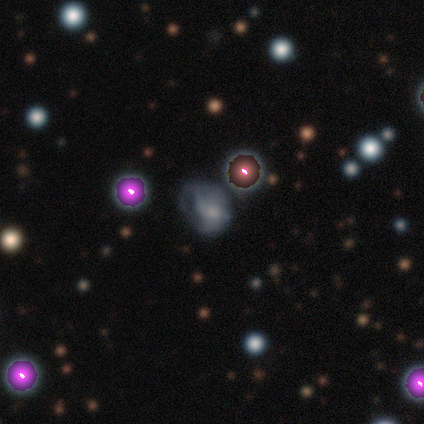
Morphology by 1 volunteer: Smooth or featured?
  - featured or disk: 100% *
  - smooth: 0%
  - star or artifact: 0%
Edge-on disk?
  - no: 100% *
  - yes: 0%
Bar?
  - no: 100% *
  - strong: 0%
  - weak: 0%
Spiral arms?
  - yes: 100% *
  - no: 0%
Spiral winding?
  - tight: 100% *
  - medium: 0%
  - loose: 0%
Spiral arm count?
  - can't tell: 100% *
  - 1: 0%
  - 2: 0%
  - 3: 0%
  - 4: 0%
  - more than 4: 0%
Bulge size?
  - moderate: 100% *
  - dominant: 0%
  - large: 0%
  - small: 0%
  - none: 0%
Merging?
  - minor disturbance: 100% *
  - none: 0%
  - major disturbance: 0%
  - merger: 0%